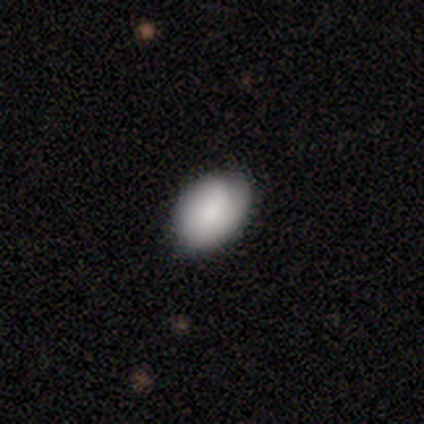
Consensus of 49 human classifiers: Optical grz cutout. It shows a smooth galaxy with no disk features (84%) that is in between round and cigar-shaped (71%). Merging: none (74%).